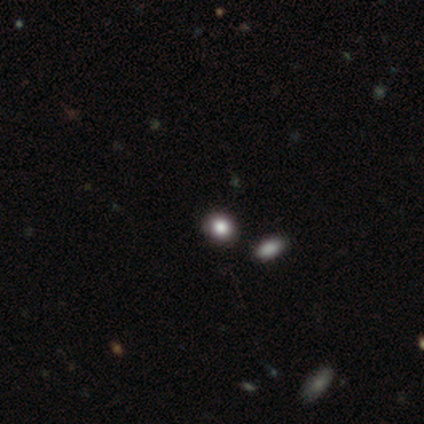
Volunteers were most divided on "how rounded": in between: 67%, round: 33%, cigar-shaped: 0%. More confident: smooth or featured — smooth (75%); merging — none (67%).